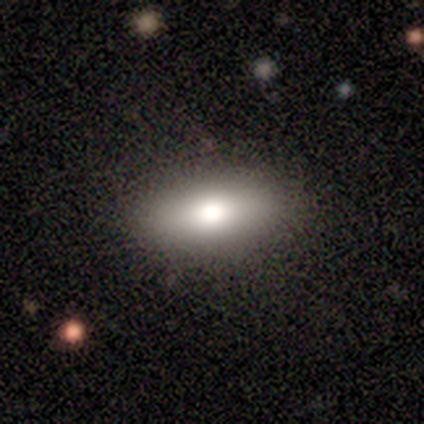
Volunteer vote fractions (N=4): smooth_or_featured: smooth (p=0.50) [alt: featured or disk p=0.25]
how_rounded: in between (p=0.50) [tied with: cigar-shaped p=0.50]
merging: none (p=1.00)